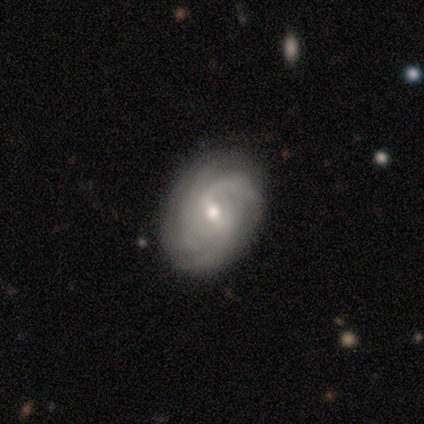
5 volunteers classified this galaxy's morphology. Smooth or featured: featured or disk — 80% (star or artifact — 20%)
Edge-on disk: no — 100%
Bar: weak — 75% (strong — 25%)
Spiral arms: yes — 100%
Spiral winding: medium — 75% (tight — 25%)
Spiral arm count: 3 — 50% (4 — 25%)
Bulge size: moderate — 50% (tied with small — 50%)
Merging: none — 75% (minor disturbance — 25%)